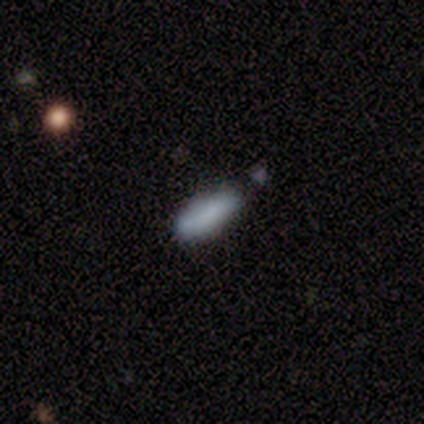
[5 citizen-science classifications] Q: Smooth or featured?
A: smooth (100%)
Q: How rounded?
A: cigar-shaped (80%); runner-up: in between (20%)
Q: Merging?
A: none (100%)